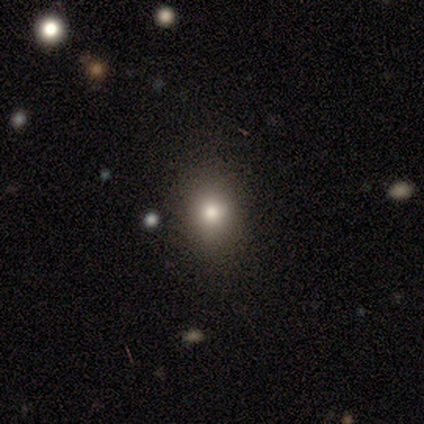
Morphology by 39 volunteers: Smooth or featured? smooth (82%)
How rounded? round (53%)
Merging? none (81%)